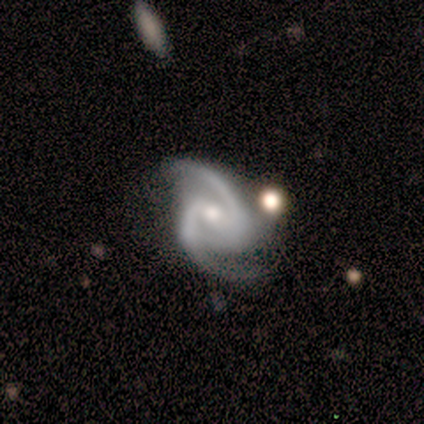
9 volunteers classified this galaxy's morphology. Smooth or featured?
  - featured or disk: 89% *
  - star or artifact: 11%
  - smooth: 0%
Edge-on disk?
  - no: 100% *
  - yes: 0%
Bar?
  - strong: 50% *
  - weak: 25%
  - no: 25%
Spiral arms?
  - yes: 100% *
  - no: 0%
Spiral winding?
  - medium: 62% *
  - tight: 25%
  - loose: 12%
Spiral arm count?
  - 2: 100% *
  - 1: 0%
  - 3: 0%
  - 4: 0%
  - more than 4: 0%
  - can't tell: 0%
Bulge size?
  - small: 62% *
  - moderate: 38%
  - dominant: 0%
  - large: 0%
  - none: 0%
Merging?
  - none: 62% *
  - major disturbance: 25%
  - minor disturbance: 12%
  - merger: 0%